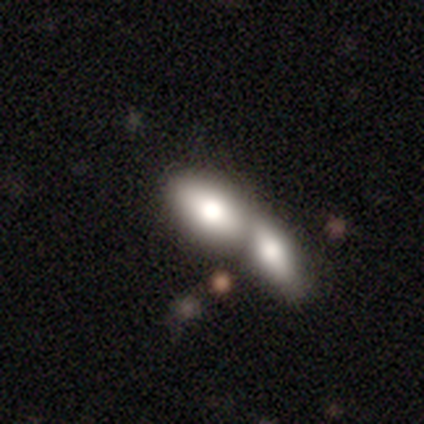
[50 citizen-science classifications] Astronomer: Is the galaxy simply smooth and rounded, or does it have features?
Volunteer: smooth — 80%.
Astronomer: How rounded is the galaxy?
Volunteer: in between — 80%.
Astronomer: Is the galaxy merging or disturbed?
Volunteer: merger — 74%.